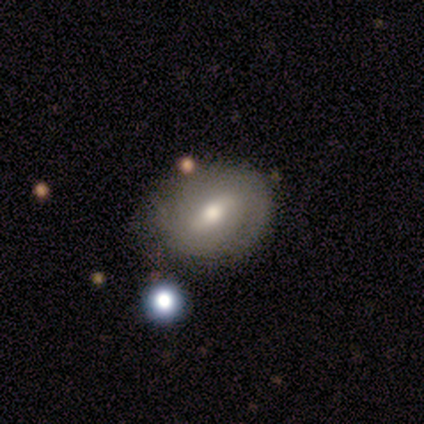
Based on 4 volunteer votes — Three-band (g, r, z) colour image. It shows a smooth galaxy with no disk features (75%) that is in between round and cigar-shaped (67%). Merging: none (50%).